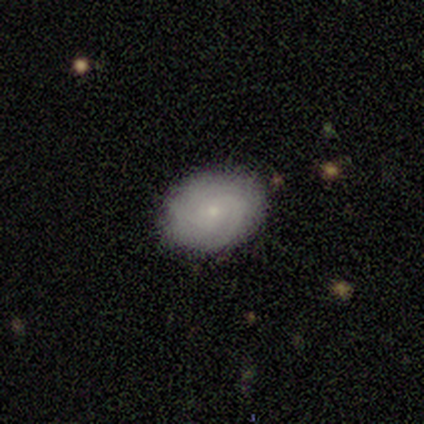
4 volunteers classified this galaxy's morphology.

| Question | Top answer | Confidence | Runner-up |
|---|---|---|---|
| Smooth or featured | featured or disk | 75% | smooth (25%) |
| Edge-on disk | no | 100% | — |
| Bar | no | 100% | — |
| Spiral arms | yes | 100% | — |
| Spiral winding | tight | 100% | — |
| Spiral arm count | can't tell | 67% | more than 4 (33%) |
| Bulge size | small | 100% | — |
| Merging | none | 75% | major disturbance (25%) |